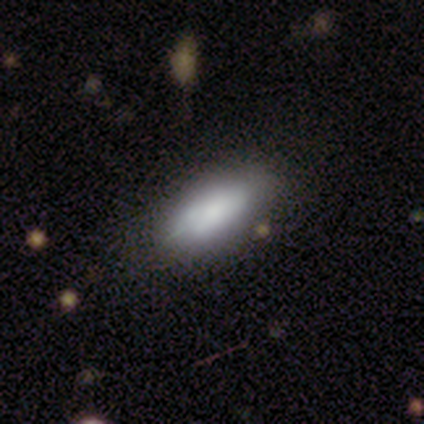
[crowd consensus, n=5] This appears to be a featured or disk galaxy (60%) with no bar (100%), no spiral arms (100%) and a large central bulge (50%, tied with moderate). Merging: minor disturbance (50%).